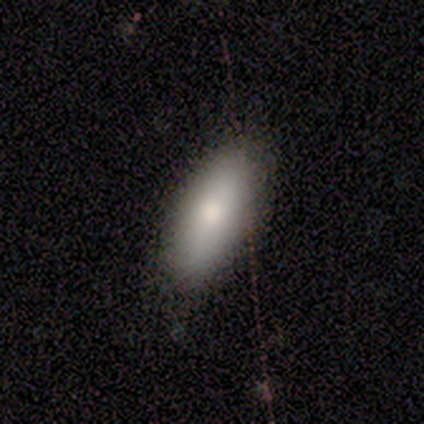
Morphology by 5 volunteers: Smooth or featured? smooth (60%)
How rounded? in between (100%)
Merging? none (75%)